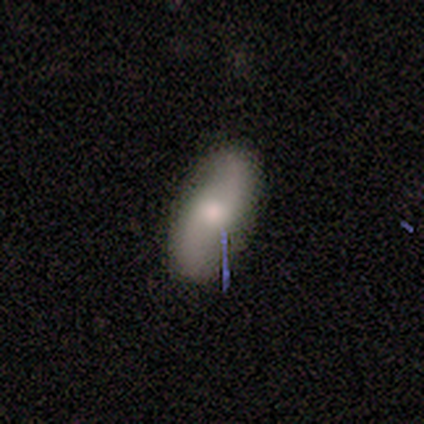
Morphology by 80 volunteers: This appears to be a featured or disk galaxy (64%) with no bar (51%), 2 (100%) loose (88%) spiral arms (88%) and a moderate central bulge (63%). Merging: none (47%).